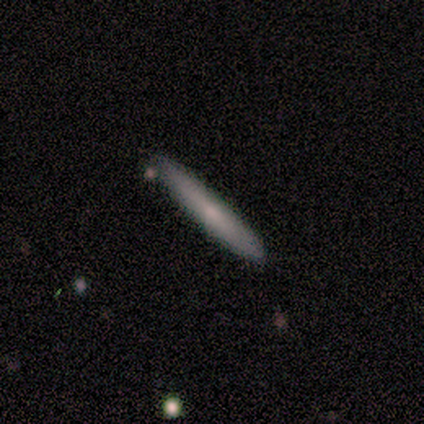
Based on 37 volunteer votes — smooth_or_featured: smooth (p=0.62) [alt: featured or disk p=0.30]
how_rounded: cigar-shaped (p=0.96) [alt: in between p=0.04]
merging: none (p=1.00)